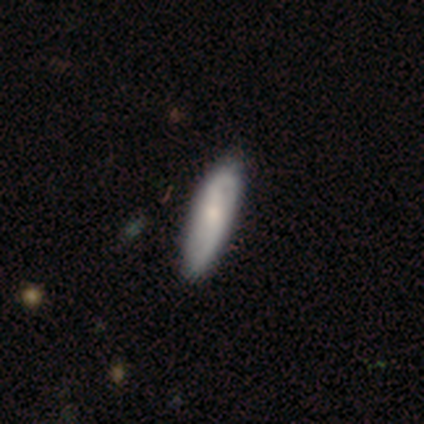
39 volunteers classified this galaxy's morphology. This is possibly a featured or disk galaxy (54%). It is clearly not viewed edge-on (81%). Bar: marginally no (41%). Spiral arm pattern: clearly yes (100%). Spiral arm count: clearly 2 (82%). Spiral winding: possibly loose (47%). Central bulge: possibly moderate (59%). Merging: likely none (77%).